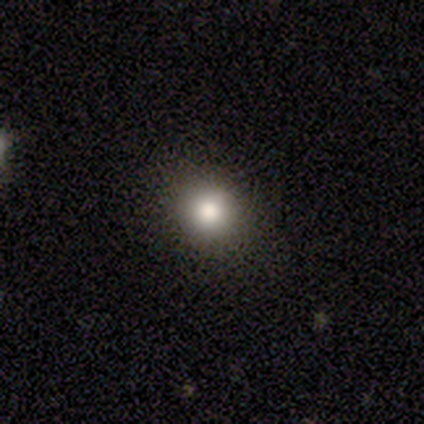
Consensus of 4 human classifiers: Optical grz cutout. It shows a smooth galaxy with no disk features (75%) that is round (100%). Merging: none (67%).